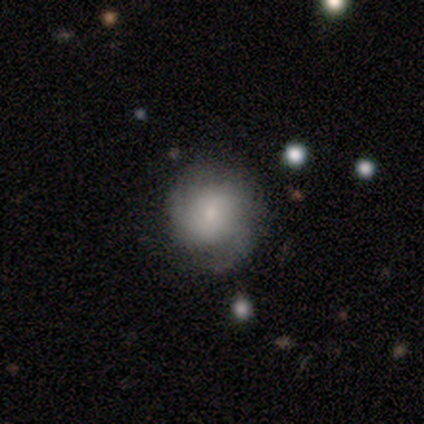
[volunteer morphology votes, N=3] smooth-or-featured: featured or disk: 100% | smooth: 0% | star or artifact: 0%
  disk-edge-on: no: 100% | yes: 0%
    bar: no: 100% | strong: 0% | weak: 0%
    has-spiral-arms: yes: 67% | no: 33%
      spiral-winding: medium: 50% (tied) | loose: 50% (tied) | tight: 0%
      spiral-arm-count: 3: 100% | 1: 0% | 2: 0% | 4: 0% | more than 4: 0% | can't tell: 0%
    bulge-size: small: 100% | dominant: 0% | large: 0% | moderate: 0% | none: 0%
  merging: none: 100% | minor disturbance: 0% | major disturbance: 0% | merger: 0%